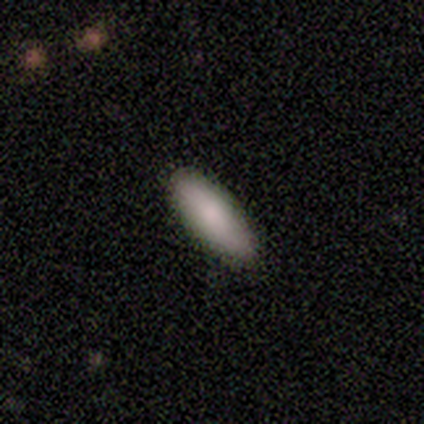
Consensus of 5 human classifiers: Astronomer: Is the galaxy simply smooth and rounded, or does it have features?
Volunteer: smooth — 80%.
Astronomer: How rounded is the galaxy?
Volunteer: in between — 50%, tied with cigar-shaped at 50%.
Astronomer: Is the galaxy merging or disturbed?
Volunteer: none — 100%.